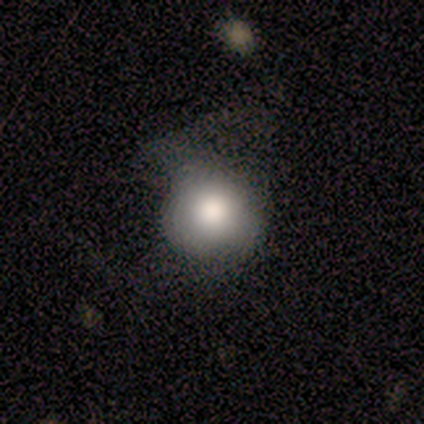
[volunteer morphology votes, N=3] type=smooth (67%); roundness=round (100%); merging=none (67%).